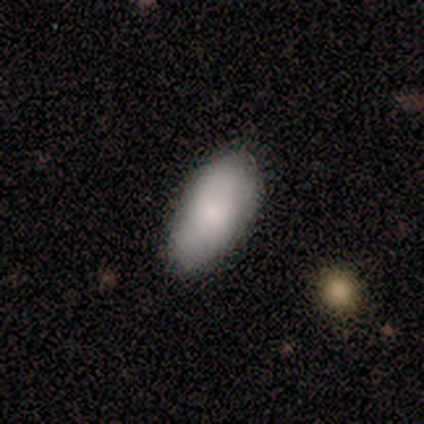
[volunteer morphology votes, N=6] Smooth or featured? smooth (67%)
How rounded? in between (100%)
Merging? none (83%)